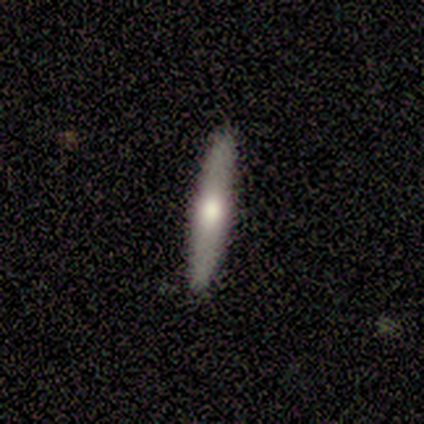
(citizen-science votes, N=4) A smooth galaxy with no disk features (75%) that is cigar-shaped (100%).

Vote fractions:
- Smooth or featured? smooth: 75% / featured or disk: 25% / star or artifact: 0%
- How rounded? cigar-shaped: 100% / round: 0% / in between: 0%
- Merging? none: 100% / minor disturbance: 0% / major disturbance: 0% / merger: 0%